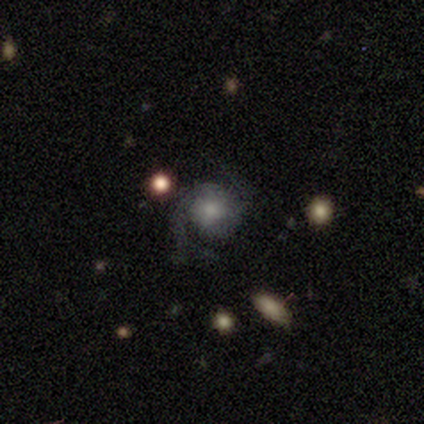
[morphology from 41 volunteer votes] type=featured or disk (78%); edge-on=no (100%); bar=no (84%); spiral arms=yes (97%); winding=medium (65%); arm count=2 (90%); bulge=moderate (47%); merging=none (72%).